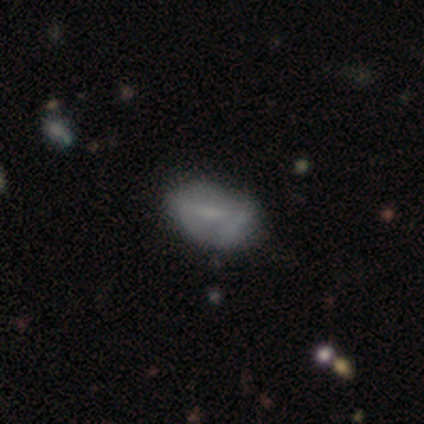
smooth 66%, featured or disk 26%, star or artifact 8%. Down the decision tree: how rounded — in between (92%); merging — none (49%).